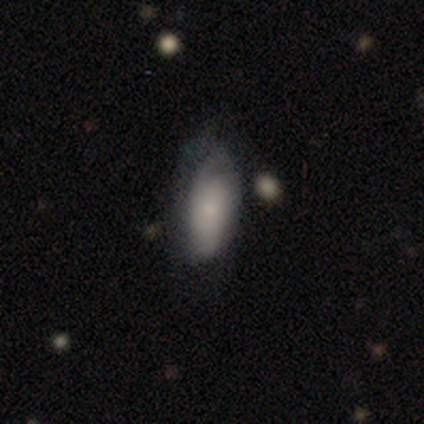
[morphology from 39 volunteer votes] Smooth or featured? smooth (49%, tied with featured or disk)
How rounded? in between (79%)
Merging? none (32%)